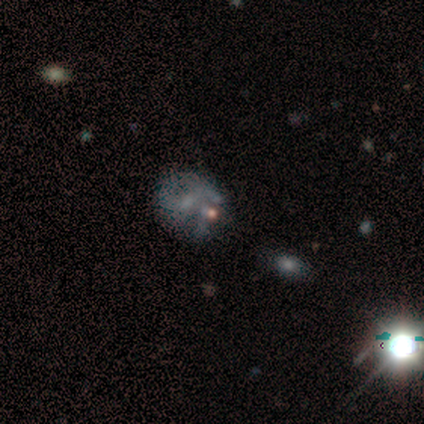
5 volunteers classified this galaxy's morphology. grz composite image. It shows a smooth galaxy with no disk features (60%) that is round (100%). Merging: merger (60%).